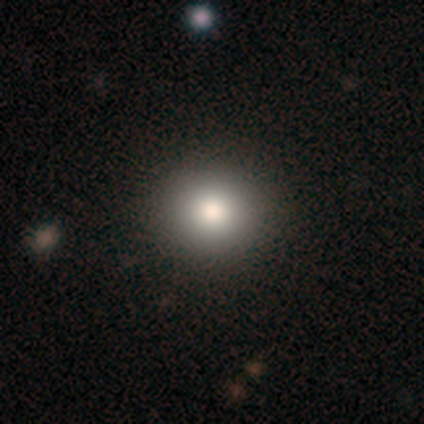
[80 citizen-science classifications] A smooth galaxy with no disk features (81%) that is round (92%).

Vote fractions:
- Smooth or featured? smooth: 81% / star or artifact: 11% / featured or disk: 8%
- How rounded? round: 92% / in between: 8% / cigar-shaped: 0%
- Merging? none: 49% / minor disturbance: 1% / merger: 1% / major disturbance: 0%